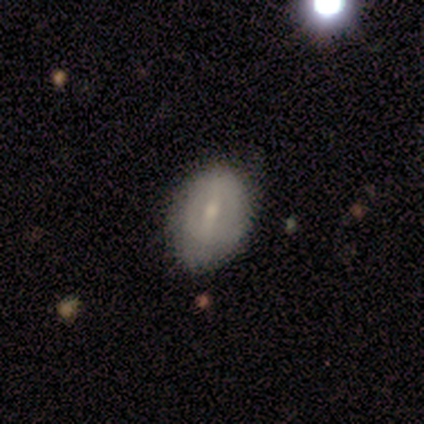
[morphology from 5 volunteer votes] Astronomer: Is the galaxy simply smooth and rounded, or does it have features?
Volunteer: featured or disk — 80%.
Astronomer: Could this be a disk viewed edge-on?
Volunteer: no — 75%.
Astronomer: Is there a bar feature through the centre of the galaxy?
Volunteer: strong — 33%, tied with weak and no at 33%.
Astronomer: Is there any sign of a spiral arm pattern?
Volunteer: no — 67%.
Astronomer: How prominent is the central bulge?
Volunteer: small — 100%.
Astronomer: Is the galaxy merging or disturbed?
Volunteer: none — 100%.